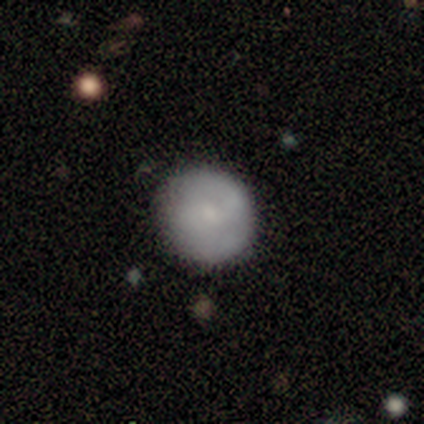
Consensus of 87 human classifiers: Morphology: type=smooth (69%); roundness=round (100%); merging=none (86%).